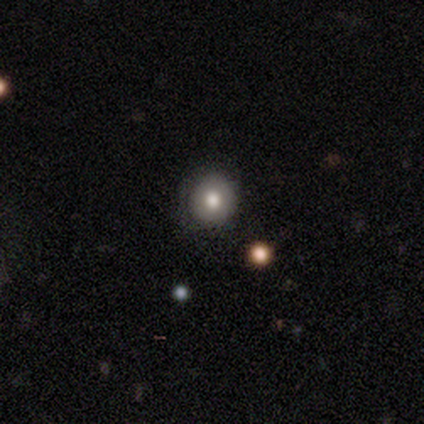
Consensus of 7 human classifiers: Morphology: type=smooth (100%); roundness=round (100%); merging=none (71%).